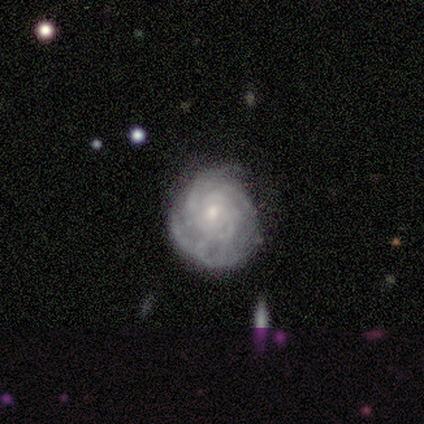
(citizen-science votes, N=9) Morphology: type=featured or disk (89%); edge-on=no (100%); bar=no (100%); spiral arms=yes (75%); winding=tight (100%); arm count=can't tell (67%); bulge=small (88%); merging=minor disturbance (44%).